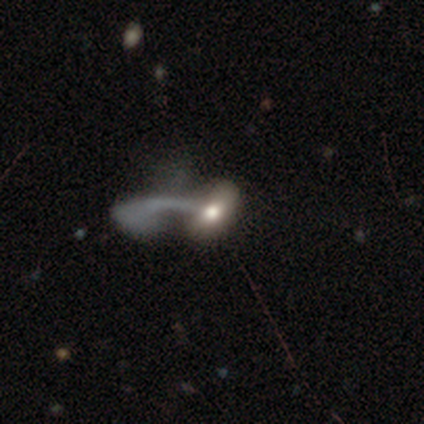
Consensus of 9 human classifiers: Smooth or featured?
  - smooth: 56% *
  - featured or disk: 44%
  - star or artifact: 0%
How rounded?
  - in between: 100% *
  - round: 0%
  - cigar-shaped: 0%
Merging?
  - merger: 44% *
  - none: 33%
  - major disturbance: 22%
  - minor disturbance: 0%